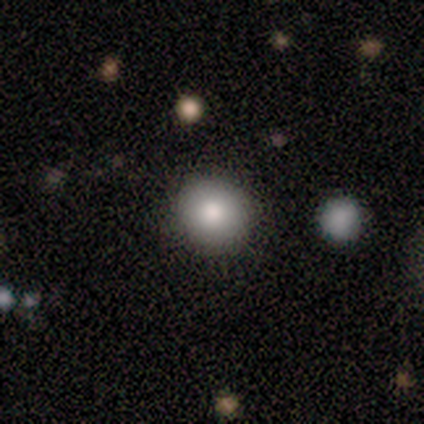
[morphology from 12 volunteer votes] type=smooth (92%); roundness=round (100%); merging=none (82%).